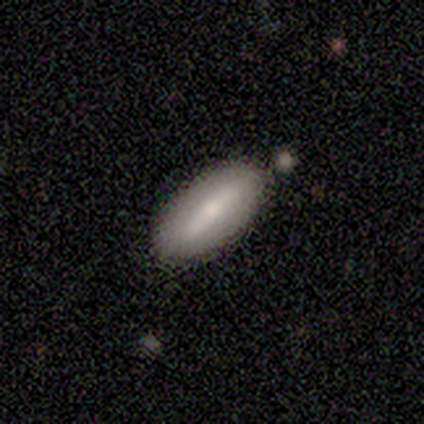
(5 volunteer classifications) Overall: smooth (80%). How rounded: in between (50%, tied with cigar-shaped). Merging: none (60%; minor disturbance 40%).